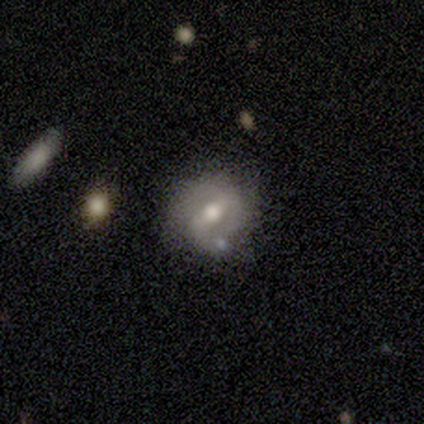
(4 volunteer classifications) featured or disk 100%, smooth 0%, star or artifact 0%. Down the decision tree: edge-on disk — no (100%); bar — weak (50%); spiral arms — yes (50%, tied with no); spiral arm count — 1 (50%, tied with can't tell); spiral winding — loose (100%); bulge size — moderate (75%); merging — none (50%).